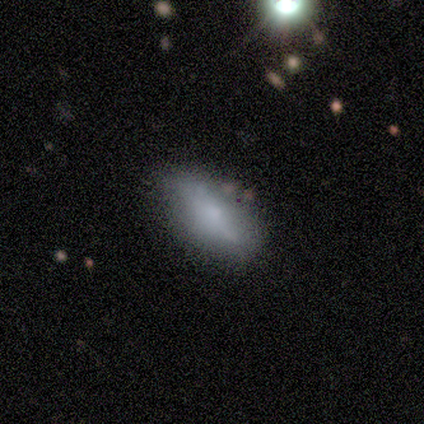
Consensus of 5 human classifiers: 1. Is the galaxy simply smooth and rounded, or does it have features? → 60% smooth, 20% featured or disk, 20% star or artifact.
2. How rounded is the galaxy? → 67% in between, 33% cigar-shaped, 0% round.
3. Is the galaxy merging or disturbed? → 100% none, 0% minor disturbance, 0% major disturbance, 0% merger.